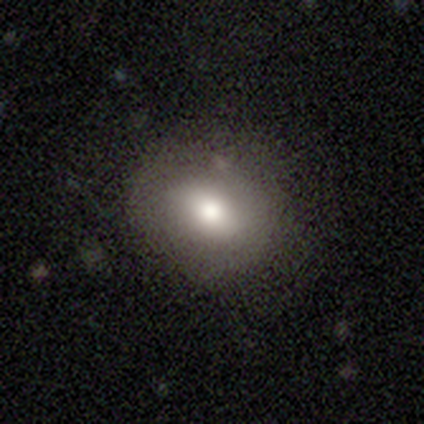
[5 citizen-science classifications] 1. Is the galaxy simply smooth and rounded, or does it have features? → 100% smooth, 0% featured or disk, 0% star or artifact.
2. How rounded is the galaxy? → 80% in between, 20% round, 0% cigar-shaped.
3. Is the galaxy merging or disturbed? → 60% none, 40% minor disturbance, 0% major disturbance, 0% merger.